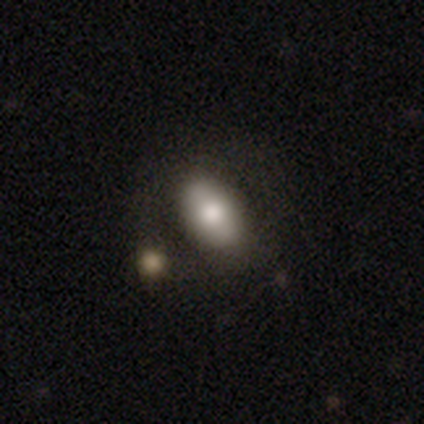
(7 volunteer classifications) Q: Smooth or featured?
A: smooth (86%); runner-up: featured or disk (14%)
Q: How rounded?
A: in between (100%)
Q: Merging?
A: minor disturbance (43%); runner-up: none (29%)